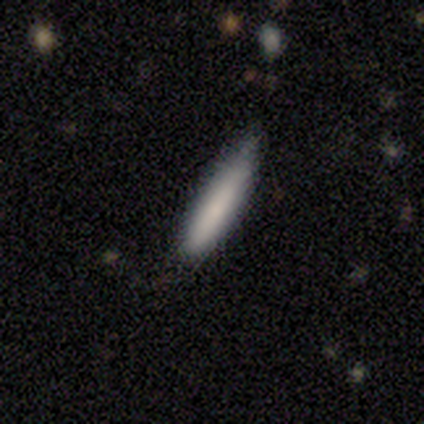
smooth 84%, featured or disk 11%, star or artifact 5%. Down the decision tree: how rounded — cigar-shaped (94%); merging — none (66%).